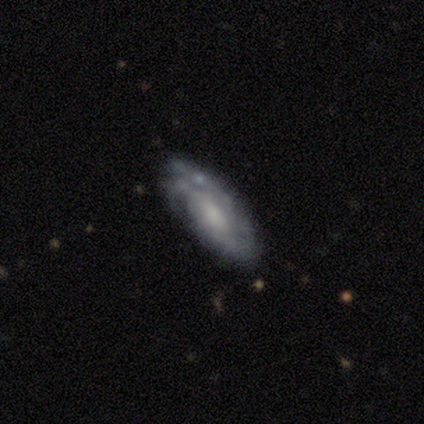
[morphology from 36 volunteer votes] Smooth or featured? featured or disk (61%)
Edge-on disk? no (77%)
Bar? no (76%)
Spiral arms? yes (82%)
Spiral winding? tight (50%)
Spiral arm count? 2 (36%)
Bulge size? small (41%)
Merging? none (71%)